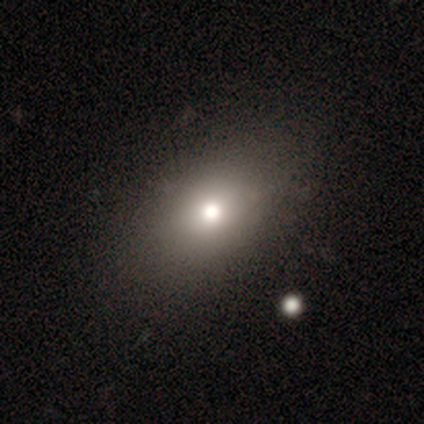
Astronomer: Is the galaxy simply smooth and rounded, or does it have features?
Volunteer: smooth — 100%.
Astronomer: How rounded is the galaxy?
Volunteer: in between — 50% (runner-up: round, 33%).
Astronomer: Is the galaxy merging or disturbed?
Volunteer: none — 100%.